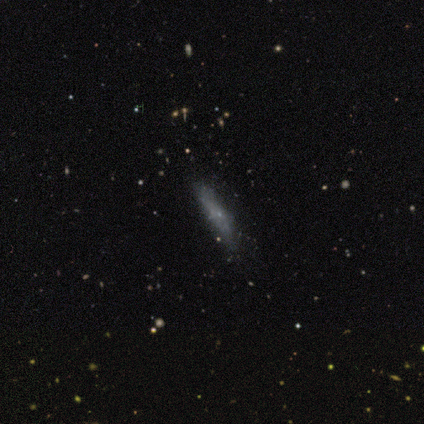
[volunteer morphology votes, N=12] Q: Smooth or featured?
A: smooth (75%); runner-up: featured or disk (17%)
Q: How rounded?
A: cigar-shaped (56%); runner-up: in between (44%)
Q: Merging?
A: none (82%); runner-up: minor disturbance (18%)